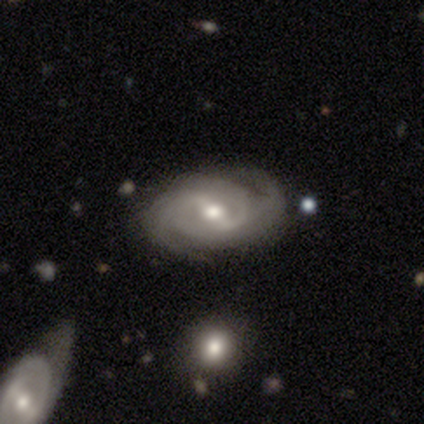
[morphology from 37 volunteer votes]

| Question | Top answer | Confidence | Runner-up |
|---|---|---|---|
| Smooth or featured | featured or disk | 97% | star or artifact (3%) |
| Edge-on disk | no | 92% | yes (8%) |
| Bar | weak | 45% | strong (42%) |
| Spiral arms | yes | 97% | no (3%) |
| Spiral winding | tight | 44% | tied: medium (44%) |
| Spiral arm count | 2 | 66% | can't tell (16%) |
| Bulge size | moderate | 61% | large (21%) |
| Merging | none | 64% | minor disturbance (28%) |